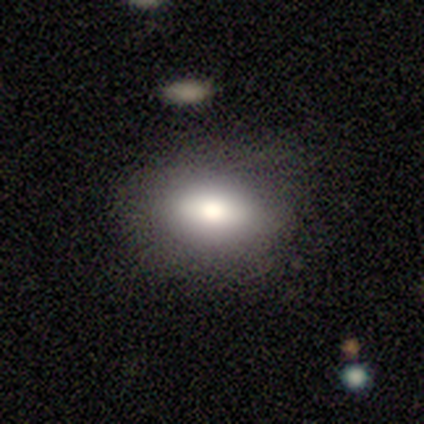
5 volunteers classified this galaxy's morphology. type=smooth (80%); roundness=in between (100%); merging=none (100%).